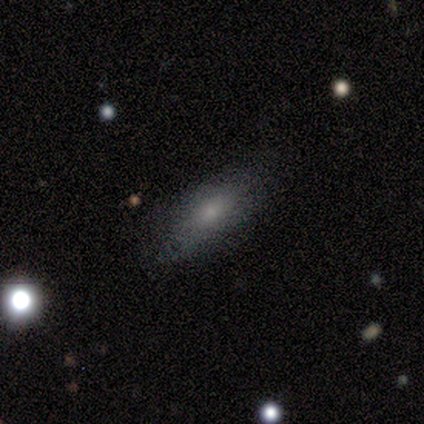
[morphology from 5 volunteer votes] Smooth or featured: smooth — 60% (featured or disk — 40%)
How rounded: cigar-shaped — 67% (in between — 33%)
Merging: none — 100%